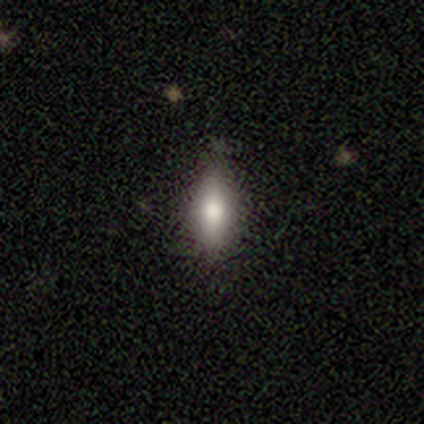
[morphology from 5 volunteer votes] smooth 80%, featured or disk 20%, star or artifact 0%. Down the decision tree: how rounded — in between (50%, tied with cigar-shaped); merging — none (60%).